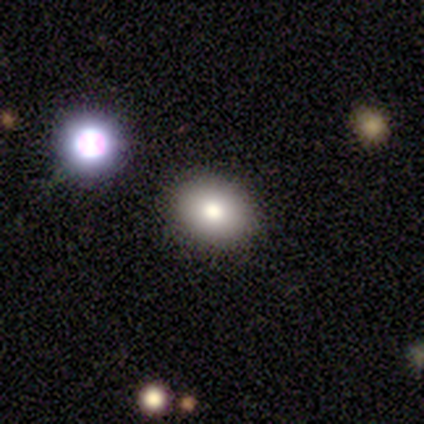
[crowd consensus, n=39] Smooth or featured? smooth (74%)
How rounded? in between (69%)
Merging? none (66%)